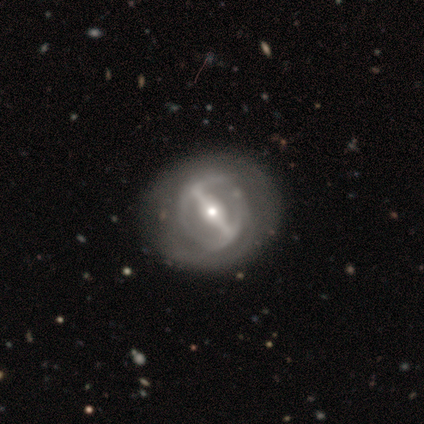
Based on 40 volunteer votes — Smooth or featured? 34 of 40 (85%) said featured or disk. Edge-on disk? 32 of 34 (94%) said no. Bar? 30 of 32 (94%) said strong. Spiral arms? 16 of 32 (50%, tied with no) said yes. Spiral winding? 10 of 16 (62%) said medium. Spiral arm count? 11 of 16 (69%) said 2. Bulge size? 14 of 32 (44%) said moderate. Merging? 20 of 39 (51%) said none.